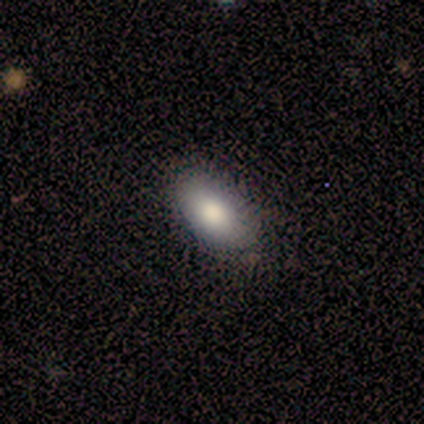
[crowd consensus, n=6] smooth 67%, featured or disk 33%, star or artifact 0%. Down the decision tree: how rounded — in between (100%); merging — none (83%).